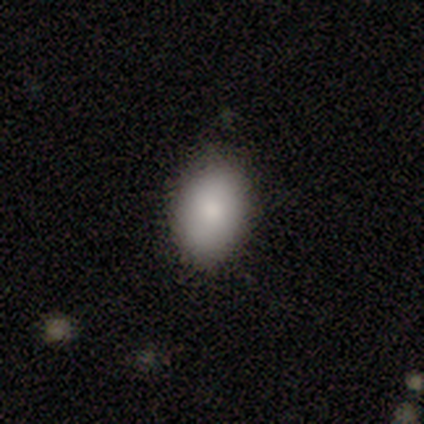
Smooth or featured? 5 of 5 (100%) said smooth. How rounded? 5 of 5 (100%) said in between. Merging? 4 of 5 (80%) said none.